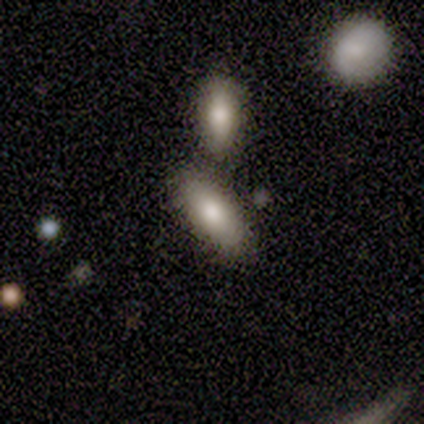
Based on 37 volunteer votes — This appears to be a smooth galaxy with no disk features (76%) that is in between round and cigar-shaped (86%). Merging: none (66%).